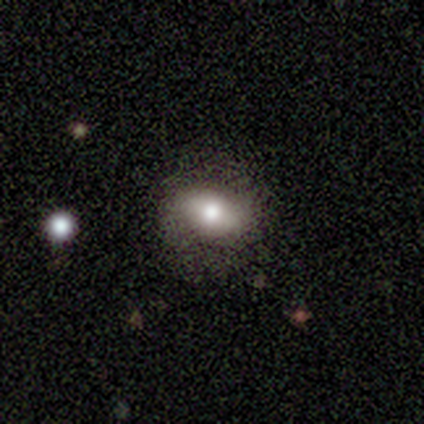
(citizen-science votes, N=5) smooth 100%, featured or disk 0%, star or artifact 0%. Down the decision tree: how rounded — in between (80%); merging — none (100%).